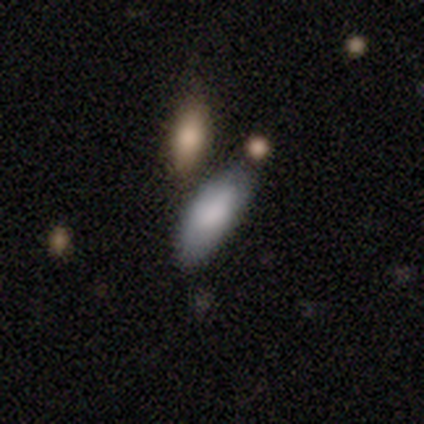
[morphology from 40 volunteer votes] smooth 85%, featured or disk 12%, star or artifact 2%. Down the decision tree: how rounded — in between (82%); merging — none (69%).